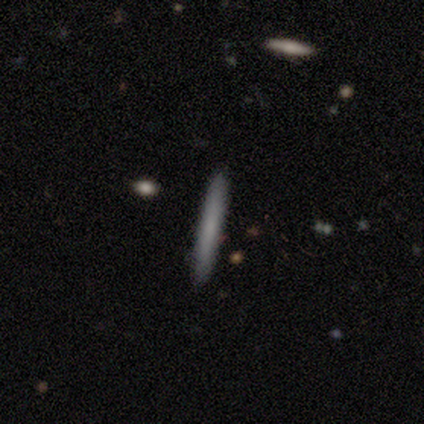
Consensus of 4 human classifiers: Overall: smooth (100%). How rounded: cigar-shaped (100%). Merging: none (100%).